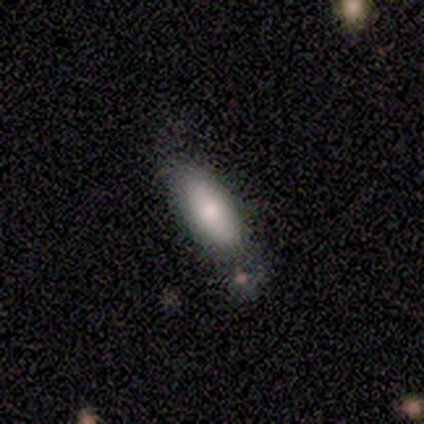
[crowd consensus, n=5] smooth 100%, featured or disk 0%, star or artifact 0%. Down the decision tree: how rounded — cigar-shaped (60%); merging — none (60%).